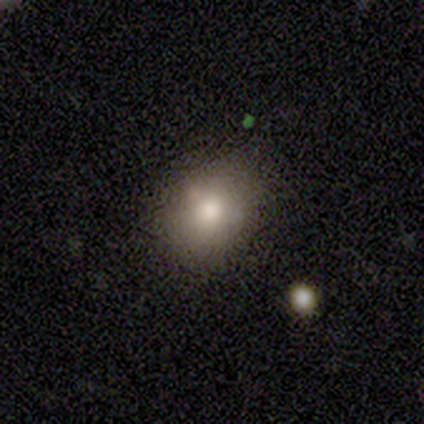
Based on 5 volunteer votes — Morphology: type=smooth (60%); roundness=round (67%); merging=none (100%).